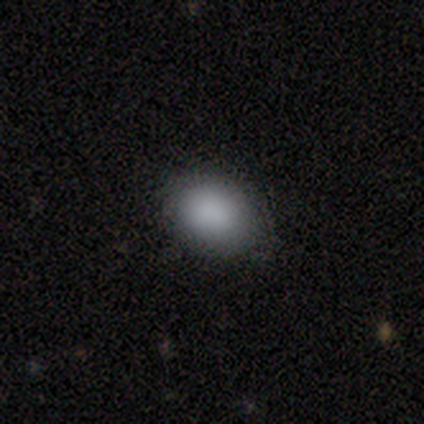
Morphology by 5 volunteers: This appears to be a smooth galaxy with no disk features (100%) that is in between round and cigar-shaped (100%). Merging: none (60%).